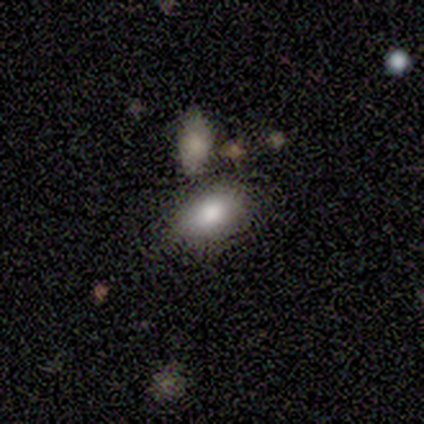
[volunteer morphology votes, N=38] This is clearly a smooth galaxy (82%). How rounded: clearly in between (94%). Merging: possibly none (59%).